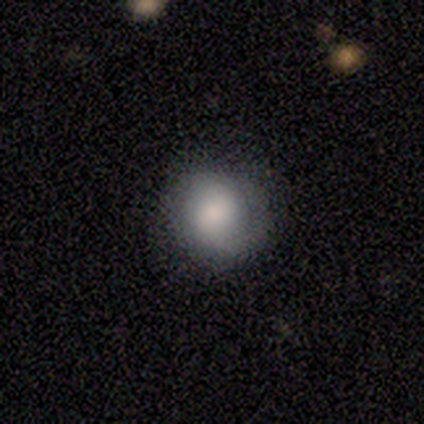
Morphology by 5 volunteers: Smooth or featured: smooth — 80% (featured or disk — 20%)
How rounded: round — 75% (in between — 25%)
Merging: none — 100%